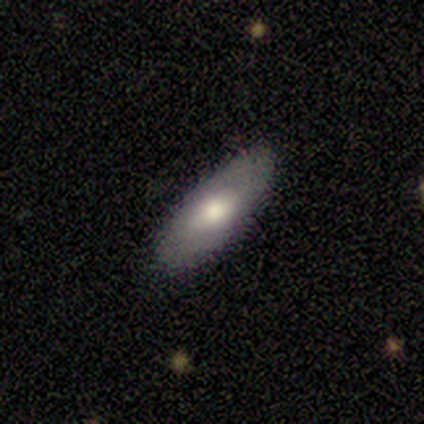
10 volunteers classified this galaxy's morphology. smooth-or-featured: smooth: 60% | featured or disk: 40% | star or artifact: 0%
  how-rounded: in between: 67% | cigar-shaped: 33% | round: 0%
  merging: none: 80% | minor disturbance: 20% | major disturbance: 0% | merger: 0%